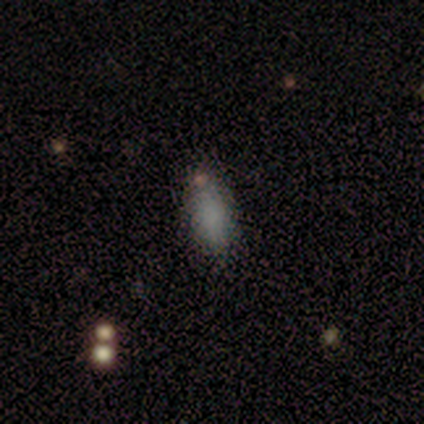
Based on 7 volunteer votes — Volunteers were most divided on "merging": none: 71%, minor disturbance: 14%, merger: 14%, major disturbance: 0%. More confident: smooth or featured — smooth (100%); how rounded — in between (86%).